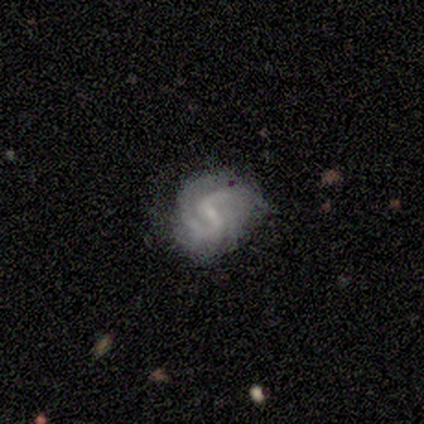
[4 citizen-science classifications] A featured or disk galaxy (100%) with a weak bar (50%, tied with no), 2 (75%) tight (50%, tied with medium) spiral arms (100%) and a small central bulge (75%).

Vote fractions:
- Smooth or featured? featured or disk: 100% / smooth: 0% / star or artifact: 0%
- Edge-on disk? no: 100% / yes: 0%
- Bar? weak: 50% (tied) / no: 50% (tied) / strong: 0%
- Spiral arms? yes: 100% / no: 0%
- Spiral winding? tight: 50% (tied) / medium: 50% (tied) / loose: 0%
- Spiral arm count? 2: 75% / can't tell: 25% / 1: 0% / 3: 0% / 4: 0% / more than 4: 0%
- Bulge size? small: 75% / none: 25% / dominant: 0% / large: 0% / moderate: 0%
- Merging? none: 75% / minor disturbance: 25% / major disturbance: 0% / merger: 0%